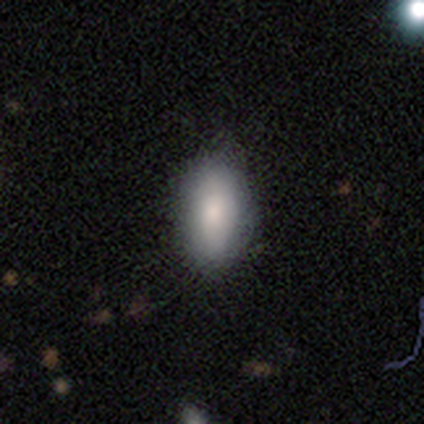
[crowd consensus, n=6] Overall: smooth (100%). How rounded: in between (100%). Merging: none (67%; minor disturbance 33%).